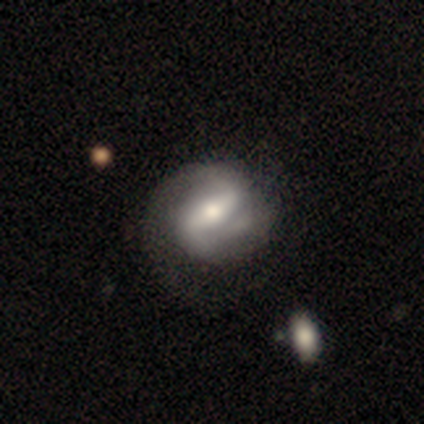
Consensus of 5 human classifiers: A featured or disk galaxy (60%) with a strong bar (100%), 2 (67%) medium (67%) spiral arms (100%) and a moderate central bulge (100%).

Vote fractions:
- Smooth or featured? featured or disk: 60% / smooth: 40% / star or artifact: 0%
- Edge-on disk? no: 100% / yes: 0%
- Bar? strong: 100% / weak: 0% / no: 0%
- Spiral arms? yes: 100% / no: 0%
- Spiral winding? medium: 67% / loose: 33% / tight: 0%
- Spiral arm count? 2: 67% / can't tell: 33% / 1: 0% / 3: 0% / 4: 0% / more than 4: 0%
- Bulge size? moderate: 100% / dominant: 0% / large: 0% / small: 0% / none: 0%
- Merging? minor disturbance: 60% / none: 40% / major disturbance: 0% / merger: 0%